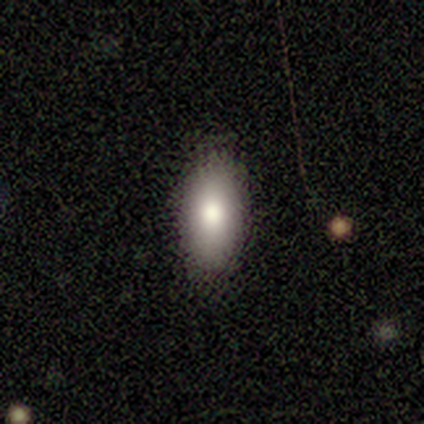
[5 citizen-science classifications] A smooth galaxy with no disk features (100%) that is in between round and cigar-shaped (100%). Merging: none (80%).